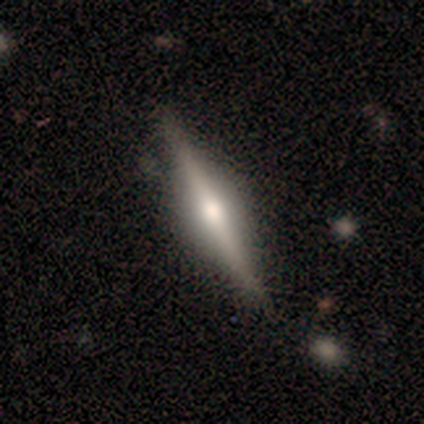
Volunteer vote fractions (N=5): A featured or disk galaxy (80%) viewed edge-on (100%) with a rounded central bulge (75%).

Vote fractions:
- Smooth or featured? featured or disk: 80% / smooth: 20% / star or artifact: 0%
- Edge-on disk? yes: 100% / no: 0%
- Edge-on bulge? rounded: 75% / boxy: 25% / none: 0%
- Merging? none: 80% / minor disturbance: 20% / major disturbance: 0% / merger: 0%